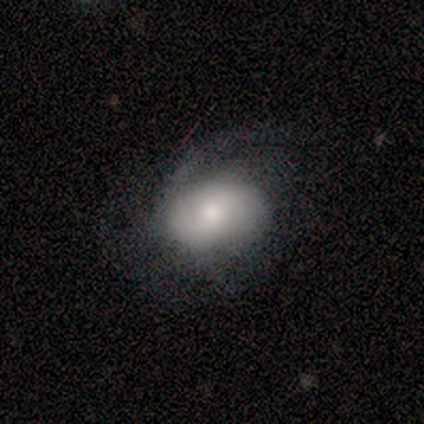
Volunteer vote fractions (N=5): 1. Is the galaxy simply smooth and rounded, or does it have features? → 60% smooth, 40% featured or disk, 0% star or artifact.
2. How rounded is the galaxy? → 67% in between, 33% round, 0% cigar-shaped.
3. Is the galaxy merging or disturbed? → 60% minor disturbance, 20% none, 20% major disturbance, 0% merger.